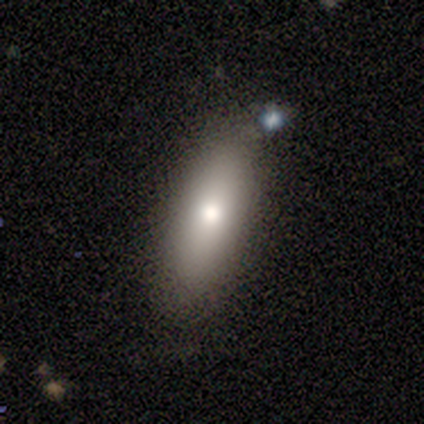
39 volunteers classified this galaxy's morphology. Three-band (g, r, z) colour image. It shows a smooth galaxy with no disk features (79%) that is in between round and cigar-shaped (74%). Merging: none (72%).